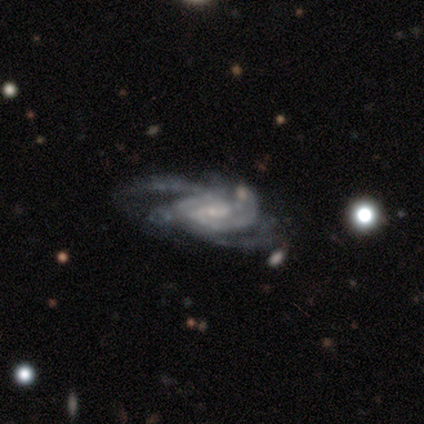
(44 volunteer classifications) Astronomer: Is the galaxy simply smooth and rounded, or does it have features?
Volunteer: featured or disk — 91%.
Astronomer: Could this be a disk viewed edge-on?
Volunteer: no — 95%.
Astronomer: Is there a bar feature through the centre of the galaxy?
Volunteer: weak — 61%.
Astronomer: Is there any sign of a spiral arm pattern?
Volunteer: yes — 97%.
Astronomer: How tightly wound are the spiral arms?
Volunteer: medium — 49% (runner-up: tight, 41%).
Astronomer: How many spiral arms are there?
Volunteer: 2 — 35% (runner-up: 3, 24%).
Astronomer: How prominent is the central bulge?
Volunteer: small — 74%.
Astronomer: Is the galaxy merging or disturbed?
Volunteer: none — 48% (runner-up: minor disturbance, 31%).